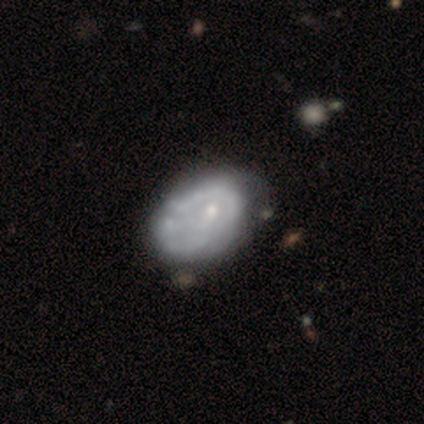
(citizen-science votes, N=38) Overall: featured or disk (71%). Edge-on disk: no (96%). Bar: no (96%). Spiral arms: no (73%). Bulge size: small (50%; moderate 35%). Merging: none (21%; minor disturbance 18%).